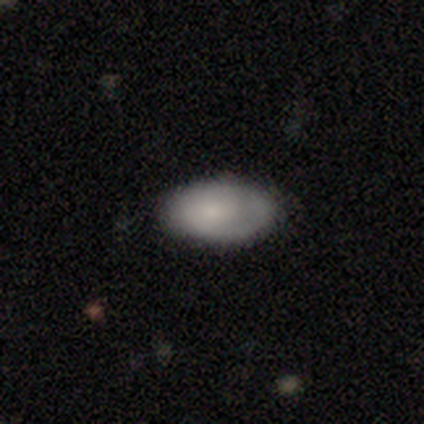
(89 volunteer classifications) A smooth galaxy with no disk features (75%) that is in between round and cigar-shaped (94%).

Vote fractions:
- Smooth or featured? smooth: 75% / featured or disk: 15% / star or artifact: 10%
- How rounded? in between: 94% / round: 6% / cigar-shaped: 0%
- Merging? none: 76% / minor disturbance: 21% / major disturbance: 2% / merger: 0%